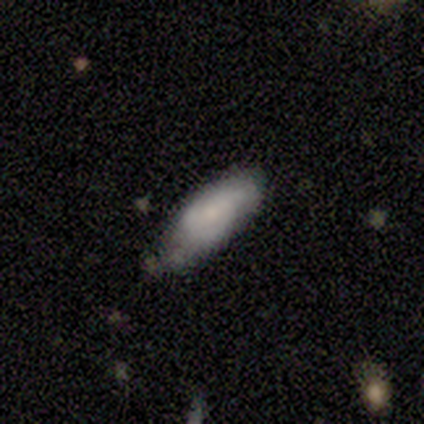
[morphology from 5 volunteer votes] This is likely a smooth galaxy (60%). How rounded: likely in between (67%). Merging: likely none (75%).